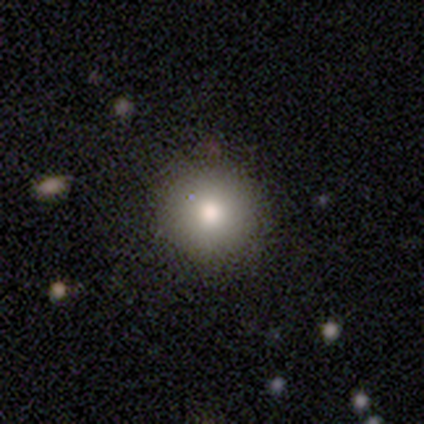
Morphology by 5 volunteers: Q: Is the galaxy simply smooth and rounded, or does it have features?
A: smooth — 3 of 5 (60%).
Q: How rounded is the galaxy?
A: round — 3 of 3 (100%).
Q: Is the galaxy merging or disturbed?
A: none — 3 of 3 (100%).